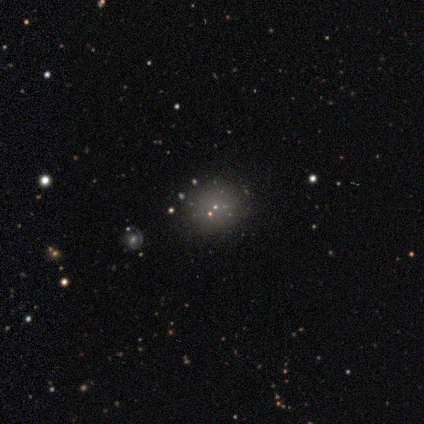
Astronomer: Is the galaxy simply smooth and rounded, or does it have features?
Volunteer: star or artifact — 75%.